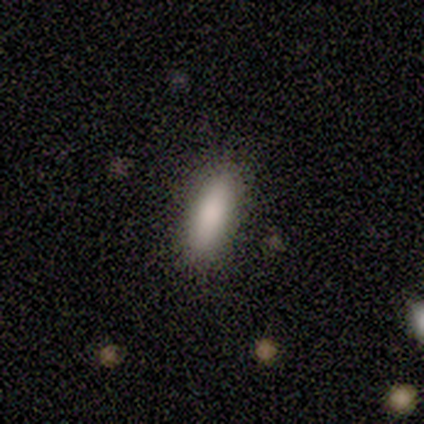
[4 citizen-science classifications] Volunteers were most divided on "how rounded" (2-way tie): in between: 50%, cigar-shaped: 50%, round: 0%. More confident: merging — none (100%); smooth or featured — smooth (50%).